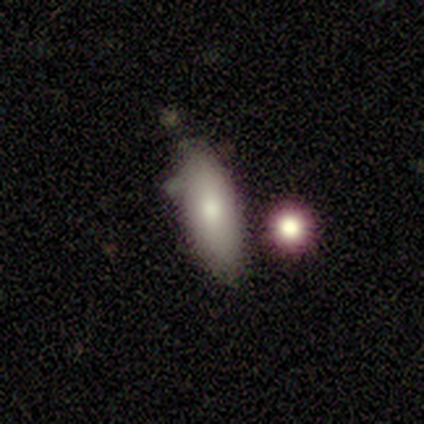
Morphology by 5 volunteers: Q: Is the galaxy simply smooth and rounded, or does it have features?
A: smooth — 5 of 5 (100%).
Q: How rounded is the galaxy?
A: in between — 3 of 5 (60%).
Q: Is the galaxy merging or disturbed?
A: none — 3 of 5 (60%).